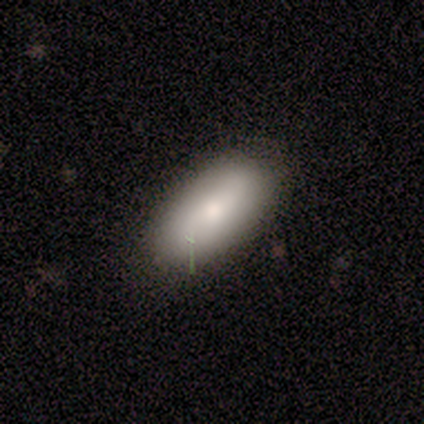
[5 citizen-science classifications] smooth_or_featured: smooth (p=1.00)
how_rounded: in between (p=1.00)
merging: none (p=0.60) [alt: minor disturbance p=0.40]